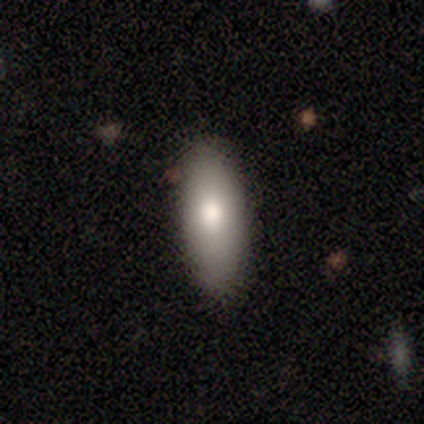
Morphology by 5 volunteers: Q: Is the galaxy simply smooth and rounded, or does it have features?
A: smooth — 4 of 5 (80%).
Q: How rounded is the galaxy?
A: in between — 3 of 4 (75%).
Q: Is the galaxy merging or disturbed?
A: none — 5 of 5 (100%).